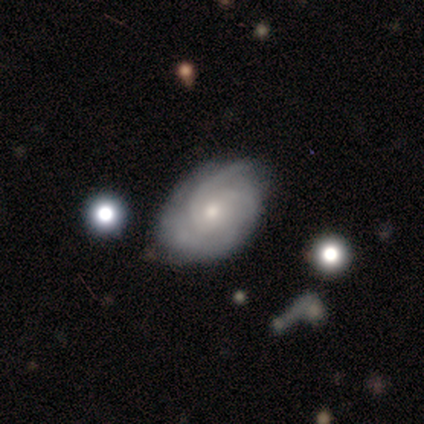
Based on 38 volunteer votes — A featured or disk galaxy (92%) with no bar (69%), 2 (35%) tight (62%) spiral arms (97%) and a small central bulge (77%). Merging: none (78%).